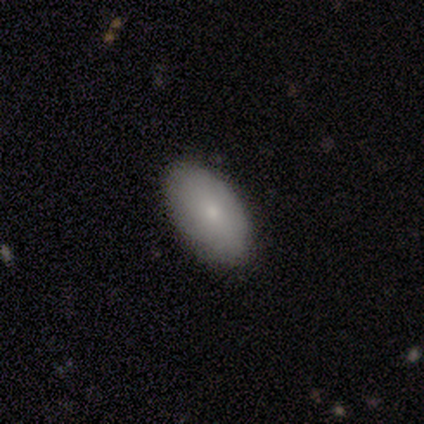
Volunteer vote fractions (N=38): smooth-or-featured: smooth: 79% | featured or disk: 13% | star or artifact: 8%
  how-rounded: in between: 93% | round: 3% | cigar-shaped: 3%
  merging: none: 91% | minor disturbance: 9% | major disturbance: 0% | merger: 0%